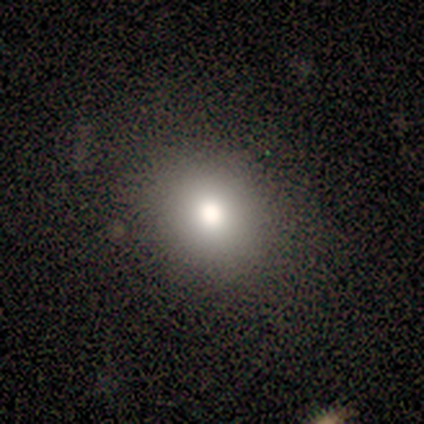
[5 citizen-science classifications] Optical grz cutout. It shows a smooth galaxy with no disk features (80%) that is round (75%). Merging: none (100%).